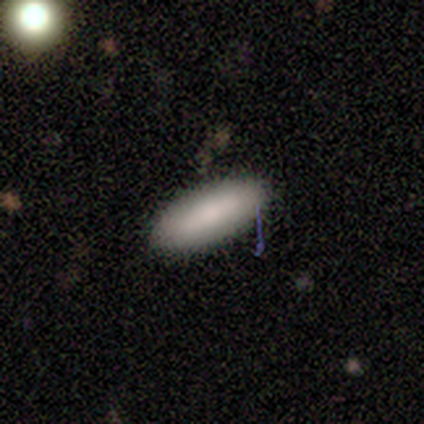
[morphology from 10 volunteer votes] Smooth or featured? 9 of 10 (90%) said smooth. How rounded? 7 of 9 (78%) said in between. Merging? 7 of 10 (70%) said none.